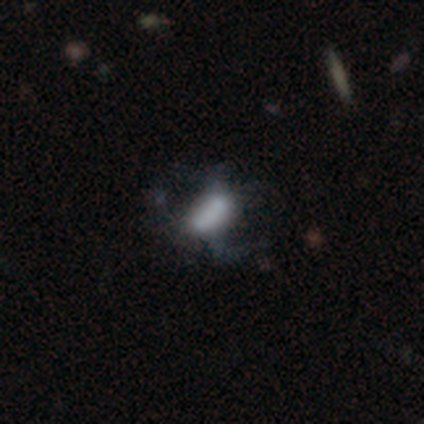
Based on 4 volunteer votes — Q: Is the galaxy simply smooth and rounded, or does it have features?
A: smooth — 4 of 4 (100%).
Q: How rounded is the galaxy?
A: in between — 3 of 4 (75%).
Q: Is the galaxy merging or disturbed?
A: major disturbance — 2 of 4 (50%).